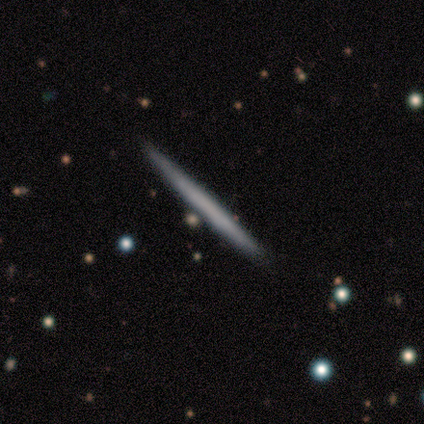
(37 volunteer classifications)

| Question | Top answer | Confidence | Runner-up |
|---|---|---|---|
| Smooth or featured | smooth | 57% | featured or disk (41%) |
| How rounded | cigar-shaped | 95% | round (5%) |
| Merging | none | 89% | merger (6%) |